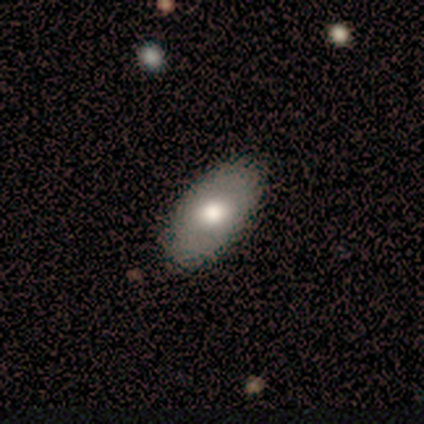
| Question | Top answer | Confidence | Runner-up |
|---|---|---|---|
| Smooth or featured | smooth | 80% | featured or disk (20%) |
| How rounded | in between | 100% | — |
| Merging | none | 100% | — |